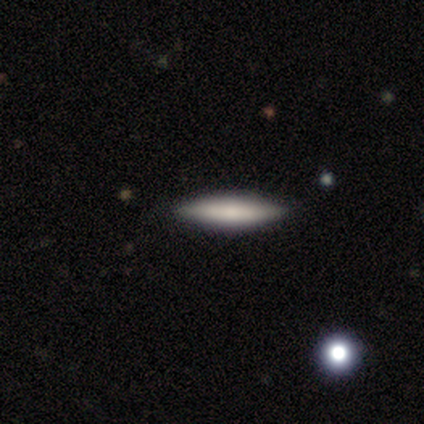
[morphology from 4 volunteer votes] smooth-or-featured: smooth: 75% | featured or disk: 25% | star or artifact: 0%
  how-rounded: cigar-shaped: 100% | round: 0% | in between: 0%
  merging: none: 100% | minor disturbance: 0% | major disturbance: 0% | merger: 0%